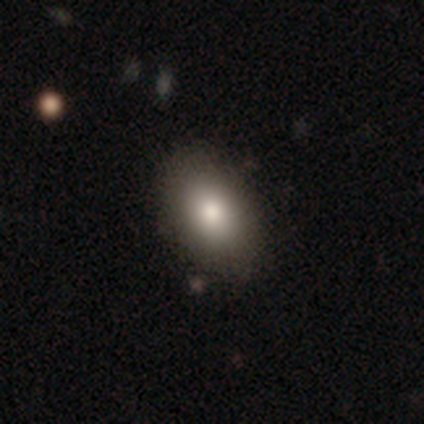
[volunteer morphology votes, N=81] This is clearly a smooth galaxy (88%). How rounded: clearly in between (85%). Merging: marginally none (39%).